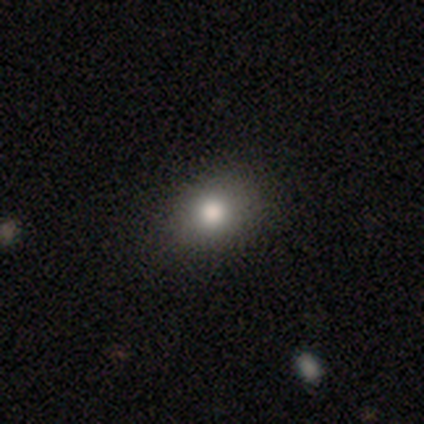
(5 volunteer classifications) A smooth galaxy with no disk features (100%) that is round (80%).

Vote fractions:
- Smooth or featured? smooth: 100% / featured or disk: 0% / star or artifact: 0%
- How rounded? round: 80% / in between: 20% / cigar-shaped: 0%
- Merging? none: 80% / minor disturbance: 20% / major disturbance: 0% / merger: 0%